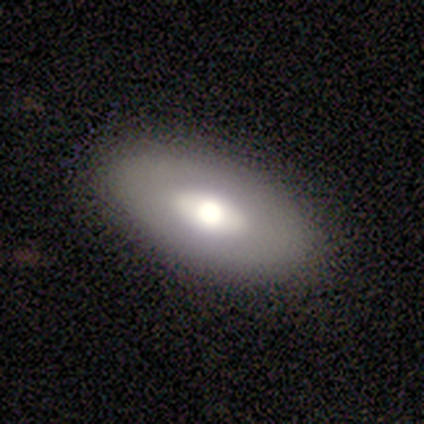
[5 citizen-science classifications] Q: Smooth or featured?
A: smooth (80%); runner-up: featured or disk (20%)
Q: How rounded?
A: in between (100%)
Q: Merging?
A: none (100%)